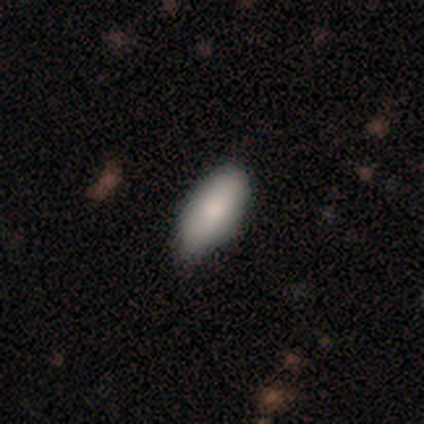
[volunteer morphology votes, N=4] smooth-or-featured: smooth: 100% | featured or disk: 0% | star or artifact: 0%
  how-rounded: in between: 50% (tied) | cigar-shaped: 50% (tied) | round: 0%
  merging: none: 75% | minor disturbance: 25% | major disturbance: 0% | merger: 0%